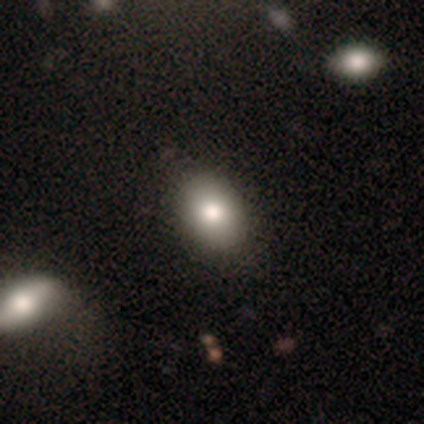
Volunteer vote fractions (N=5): A smooth galaxy with no disk features (60%) that is in between round and cigar-shaped (100%). Merging: none (100%).